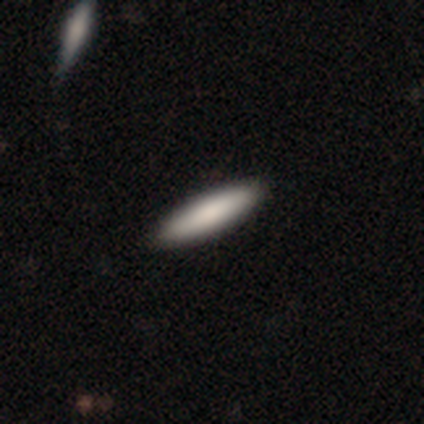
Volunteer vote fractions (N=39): Morphology: type=smooth (90%); roundness=cigar-shaped (77%); merging=none (59%).